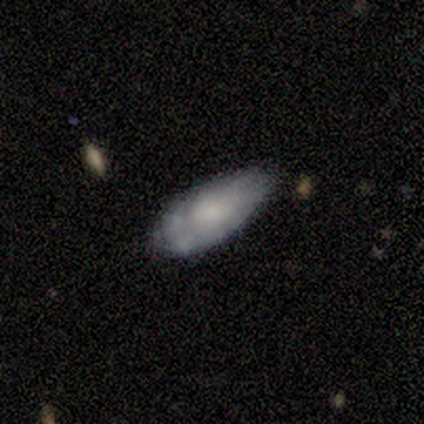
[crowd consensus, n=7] smooth 43% (tied), featured or disk 43% (tied), star or artifact 14%. Down the decision tree: how rounded — in between (100%); merging — none (83%).